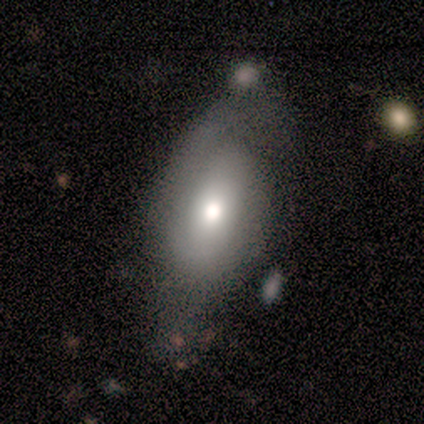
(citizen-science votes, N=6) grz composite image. It shows a smooth galaxy with no disk features (83%) that is in between round and cigar-shaped (100%). Merging: none (33%, tied with minor disturbance and major disturbance).